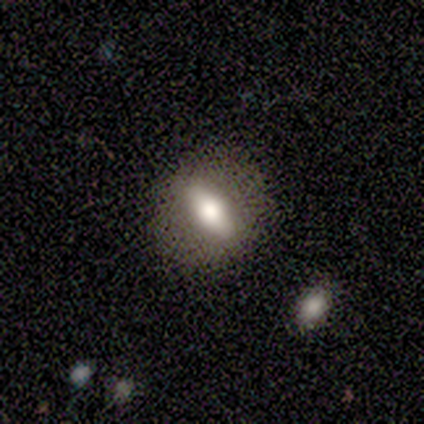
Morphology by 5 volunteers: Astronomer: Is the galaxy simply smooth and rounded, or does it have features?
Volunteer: smooth — 80%.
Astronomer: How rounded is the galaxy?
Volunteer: in between — 75%.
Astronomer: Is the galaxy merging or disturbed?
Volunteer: none — 100%.